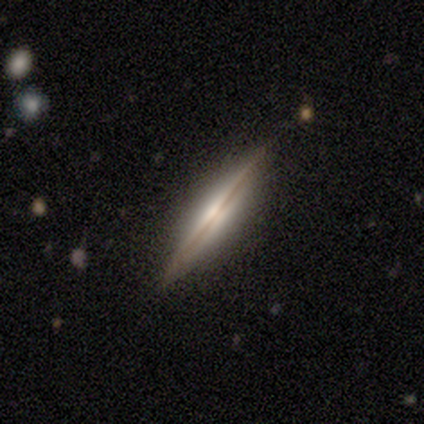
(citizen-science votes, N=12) Smooth or featured? 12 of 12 (100%) said featured or disk. Edge-on disk? 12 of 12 (100%) said yes. Edge-on bulge? 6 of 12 (50%) said none. Merging? 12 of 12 (100%) said none.